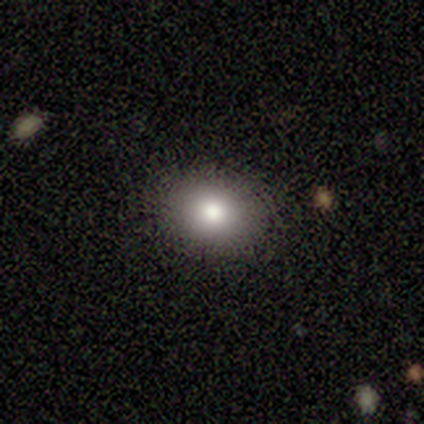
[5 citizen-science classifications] Smooth or featured? 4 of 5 (80%) said smooth. How rounded? 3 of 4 (75%) said in between. Merging? 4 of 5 (80%) said none.